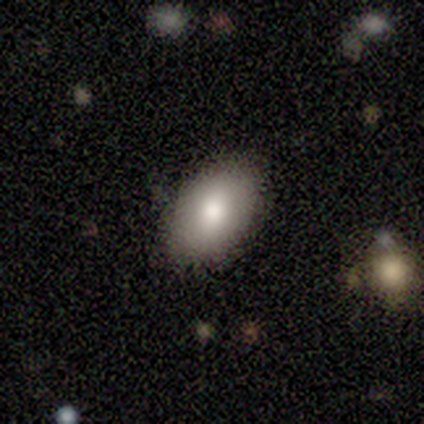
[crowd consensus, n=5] smooth-or-featured: smooth: 40% (tied) | featured or disk: 40% (tied) | star or artifact: 20%
  how-rounded: in between: 100% | round: 0% | cigar-shaped: 0%
  merging: none: 100% | minor disturbance: 0% | major disturbance: 0% | merger: 0%